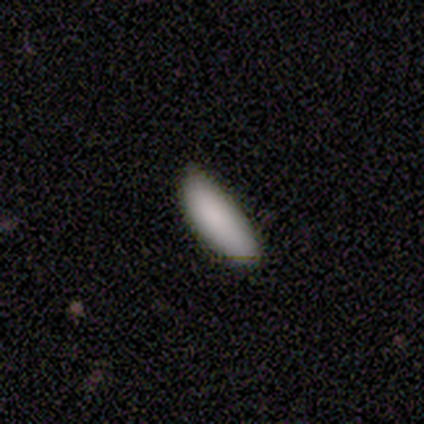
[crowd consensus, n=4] A smooth galaxy with no disk features (100%) that is in between round and cigar-shaped (50%, tied with cigar-shaped).

Vote fractions:
- Smooth or featured? smooth: 100% / featured or disk: 0% / star or artifact: 0%
- How rounded? in between: 50% (tied) / cigar-shaped: 50% (tied) / round: 0%
- Merging? none: 50% (tied) / minor disturbance: 50% (tied) / major disturbance: 0% / merger: 0%